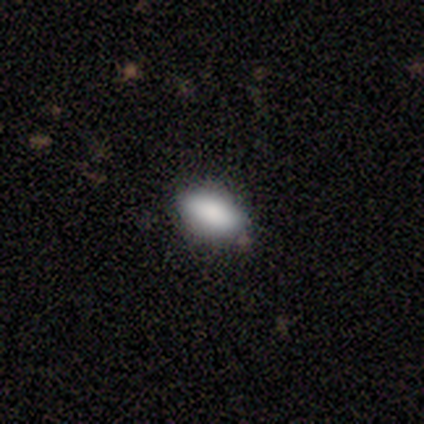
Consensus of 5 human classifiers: Overall: smooth (80%). How rounded: in between (100%). Merging: none (60%; minor disturbance 40%).